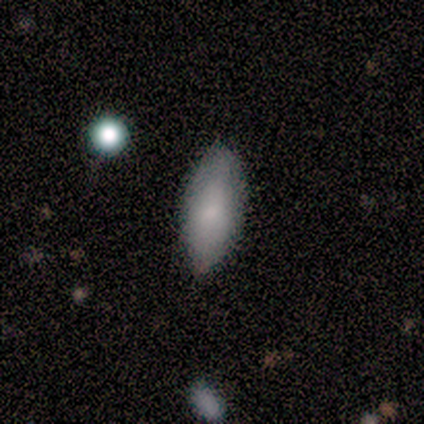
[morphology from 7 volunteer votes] Overall: smooth (86%). How rounded: in between (83%). Merging: none (57%; minor disturbance 29%).